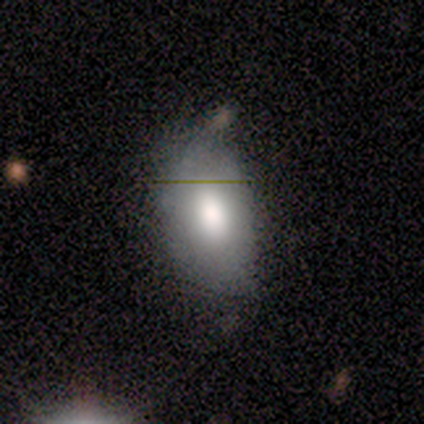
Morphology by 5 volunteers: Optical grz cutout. It shows a smooth galaxy with no disk features (60%) that is in between round and cigar-shaped (100%). Merging: minor disturbance (50%).